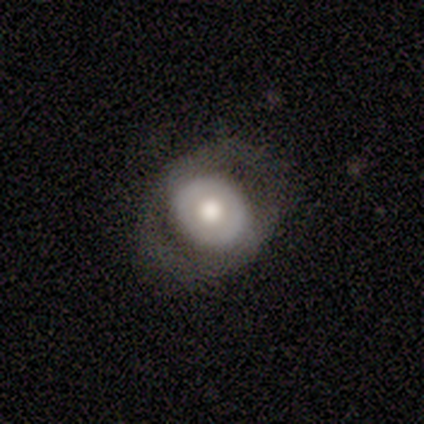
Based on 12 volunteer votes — This appears to be a featured or disk galaxy (67%) with no bar (100%), no spiral arms (100%) and a moderate central bulge (62%). Merging: none (67%).